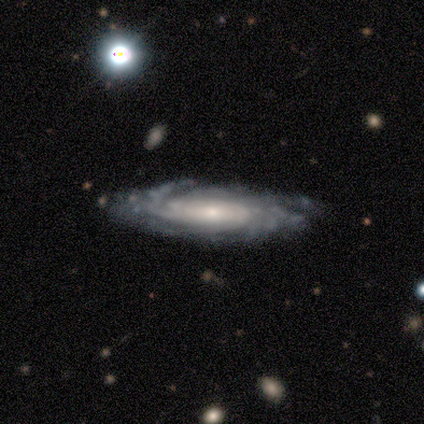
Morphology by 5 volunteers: Smooth or featured? 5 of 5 (100%) said featured or disk. Edge-on disk? 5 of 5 (100%) said no. Bar? 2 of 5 (40%, tied with no) said strong. Spiral arms? 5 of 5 (100%) said yes. Spiral winding? 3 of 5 (60%) said tight. Spiral arm count? 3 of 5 (60%) said can't tell. Bulge size? 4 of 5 (80%) said small. Merging? 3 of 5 (60%) said none.